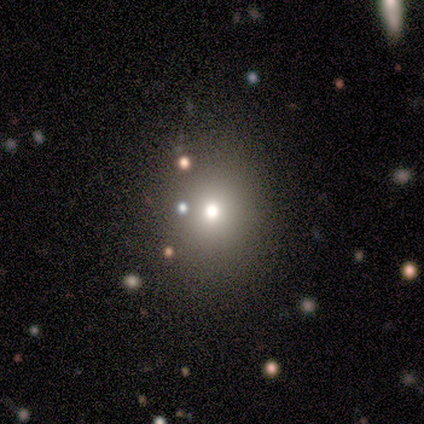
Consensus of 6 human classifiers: Smooth or featured? smooth (83%)
How rounded? in between (60%)
Merging? none (60%)